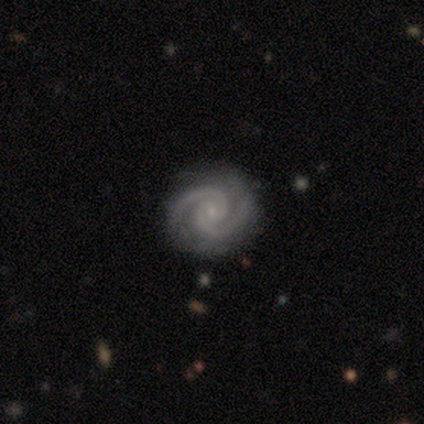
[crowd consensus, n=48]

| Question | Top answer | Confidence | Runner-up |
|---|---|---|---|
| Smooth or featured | featured or disk | 92% | star or artifact (8%) |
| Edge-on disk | no | 93% | yes (7%) |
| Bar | no | 73% | weak (24%) |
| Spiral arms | yes | 100% | — |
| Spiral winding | tight | 73% | medium (24%) |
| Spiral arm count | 2 | 98% | 3 (2%) |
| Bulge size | small | 80% | moderate (10%) |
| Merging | none | 93% | minor disturbance (5%) |